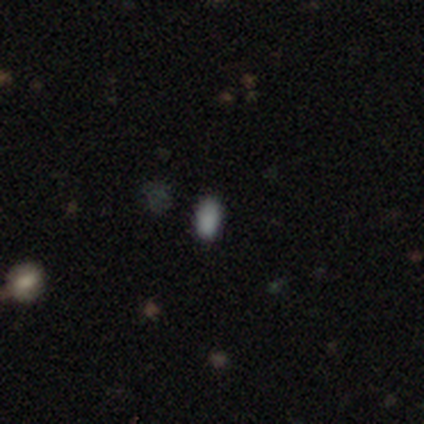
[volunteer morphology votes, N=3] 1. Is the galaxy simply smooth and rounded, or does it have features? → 67% smooth, 33% star or artifact, 0% featured or disk.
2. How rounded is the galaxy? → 100% in between, 0% round, 0% cigar-shaped.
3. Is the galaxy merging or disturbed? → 100% none, 0% minor disturbance, 0% major disturbance, 0% merger.